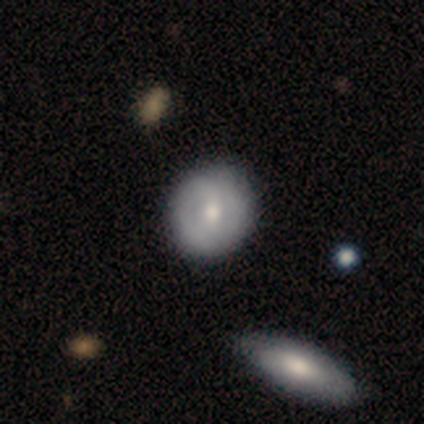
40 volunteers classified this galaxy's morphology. Smooth or featured? 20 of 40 (50%) said smooth. How rounded? 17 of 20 (85%) said round. Merging? 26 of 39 (67%) said none.